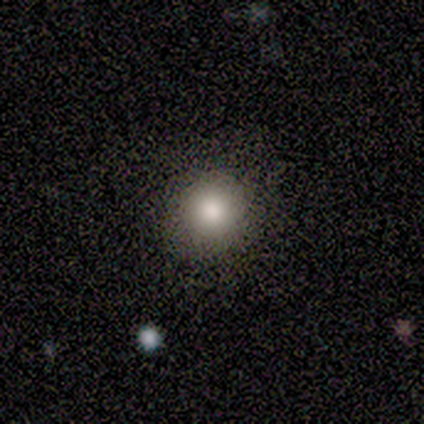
smooth-or-featured: smooth: 60% | star or artifact: 40% | featured or disk: 0%
  how-rounded: round: 100% | in between: 0% | cigar-shaped: 0%
  merging: none: 100% | minor disturbance: 0% | major disturbance: 0% | merger: 0%